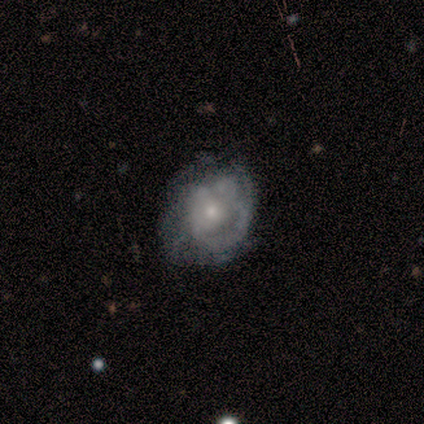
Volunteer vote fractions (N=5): Smooth or featured? featured or disk (60%)
Edge-on disk? no (100%)
Bar? no (100%)
Spiral arms? no (67%)
Bulge size? small (67%)
Merging? none (60%)